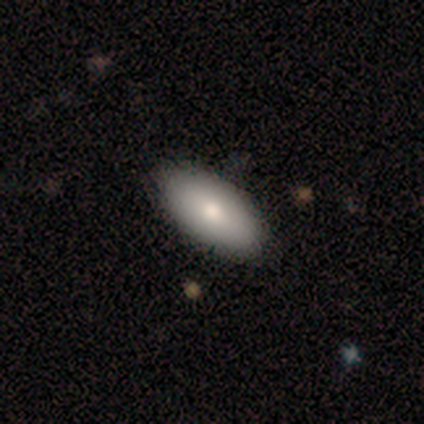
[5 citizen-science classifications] Overall: smooth (80%). How rounded: in between (100%). Merging: none (100%).